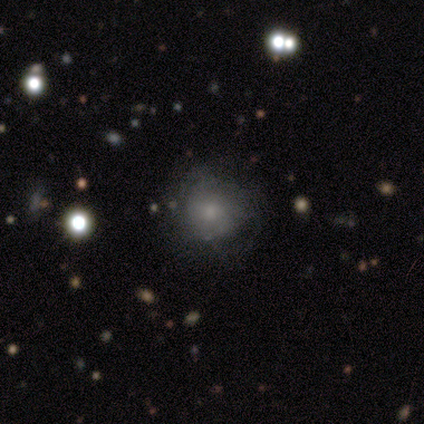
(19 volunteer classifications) Overall: smooth (53%; featured or disk 32%). How rounded: round (100%). Merging: none (50%, tied with minor disturbance).